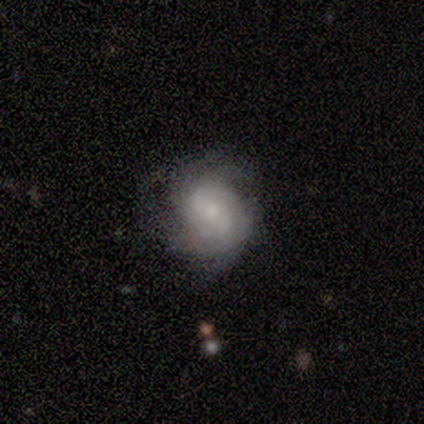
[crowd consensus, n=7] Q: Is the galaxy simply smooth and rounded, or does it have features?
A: featured or disk — 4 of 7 (57%).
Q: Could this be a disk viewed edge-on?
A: no — 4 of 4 (100%).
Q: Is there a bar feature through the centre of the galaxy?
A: weak — 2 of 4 (50%, tied with no).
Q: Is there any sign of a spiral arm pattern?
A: yes — 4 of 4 (100%).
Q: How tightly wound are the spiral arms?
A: tight — 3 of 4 (75%).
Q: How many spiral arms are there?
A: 4 — 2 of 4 (50%).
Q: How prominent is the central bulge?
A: small — 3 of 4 (75%).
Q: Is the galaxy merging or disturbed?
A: minor disturbance — 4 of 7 (57%).